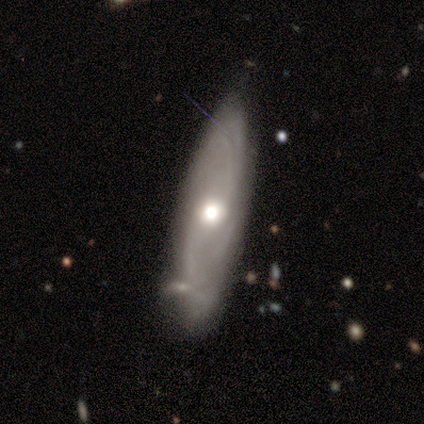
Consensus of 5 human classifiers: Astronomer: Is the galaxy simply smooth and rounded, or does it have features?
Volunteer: featured or disk — 100%.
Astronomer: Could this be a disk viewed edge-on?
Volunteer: no — 60% (runner-up: yes, 40%).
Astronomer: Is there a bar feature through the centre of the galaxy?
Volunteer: no — 67%.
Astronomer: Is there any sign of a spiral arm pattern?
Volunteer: yes — 100%.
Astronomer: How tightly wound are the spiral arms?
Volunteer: tight — 33%, tied with medium and loose at 33%.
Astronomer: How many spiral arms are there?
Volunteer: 3 — 67%.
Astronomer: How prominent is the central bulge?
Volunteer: large — 67%.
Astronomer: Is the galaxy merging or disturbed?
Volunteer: none — 80%.